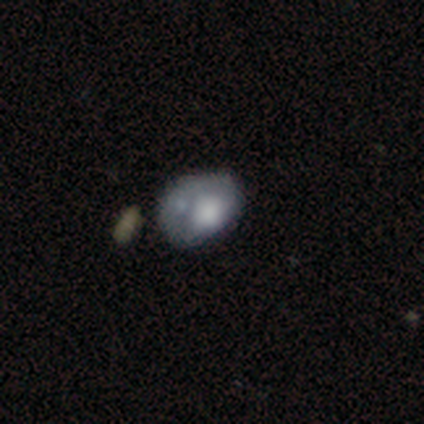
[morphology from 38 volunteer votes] A smooth galaxy with no disk features (66%) that is in between round and cigar-shaped (76%). Merging: minor disturbance (36%).